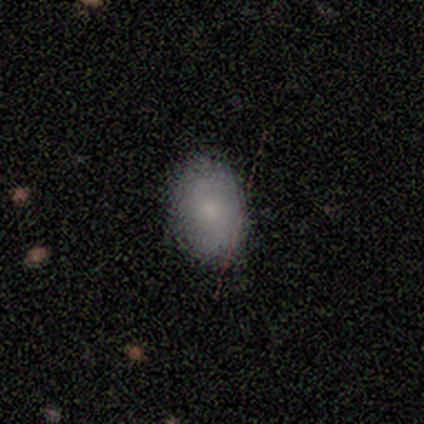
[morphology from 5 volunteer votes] Smooth or featured? smooth (80%)
How rounded? in between (100%)
Merging? none (100%)